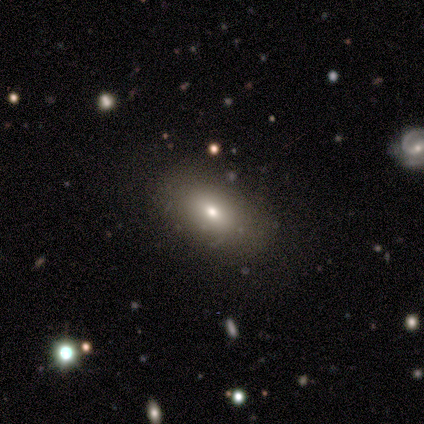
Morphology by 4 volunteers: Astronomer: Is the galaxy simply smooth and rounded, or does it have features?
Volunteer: smooth — 75%.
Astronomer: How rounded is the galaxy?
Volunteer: in between — 67%.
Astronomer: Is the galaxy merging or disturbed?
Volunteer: none — 100%.